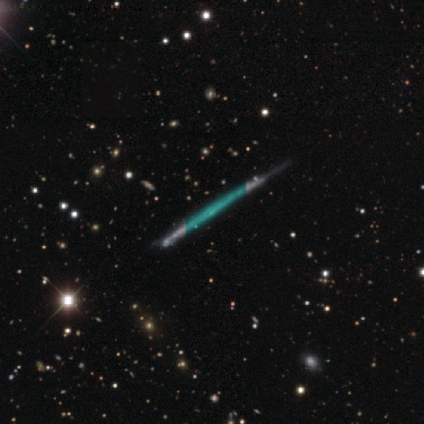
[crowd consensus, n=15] Smooth or featured: featured or disk — 60% (star or artifact — 33%)
Edge-on disk: yes — 78% (no — 22%)
Edge-on bulge: none — 100%
Merging: none — 90% (minor disturbance — 10%)